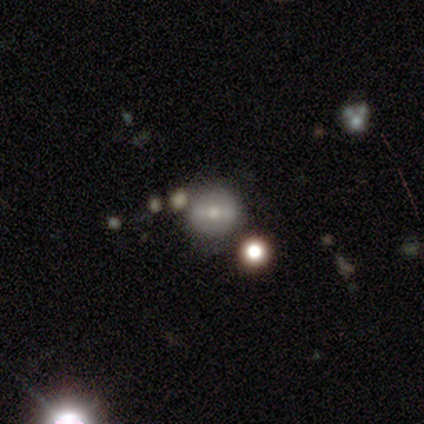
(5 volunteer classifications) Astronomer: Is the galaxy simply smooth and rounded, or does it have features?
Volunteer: featured or disk — 60%.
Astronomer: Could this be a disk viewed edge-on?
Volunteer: no — 100%.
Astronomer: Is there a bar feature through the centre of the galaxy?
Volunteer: strong — 67%.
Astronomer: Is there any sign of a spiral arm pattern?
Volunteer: no — 100%.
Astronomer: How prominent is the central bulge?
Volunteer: moderate — 67%.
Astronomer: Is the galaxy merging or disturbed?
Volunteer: minor disturbance — 50%.